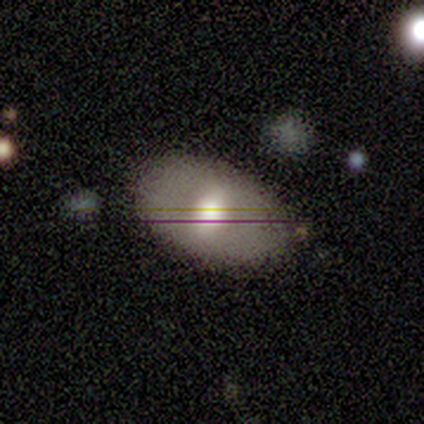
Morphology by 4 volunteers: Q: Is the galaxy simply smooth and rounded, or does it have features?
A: smooth — 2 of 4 (50%).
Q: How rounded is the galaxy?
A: in between — 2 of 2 (100%).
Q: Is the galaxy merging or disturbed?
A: none — 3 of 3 (100%).